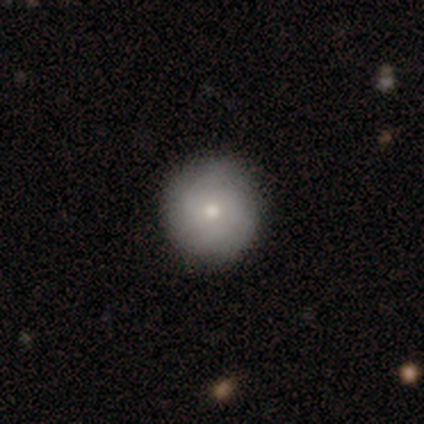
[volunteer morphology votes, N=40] type=smooth (62%); roundness=round (96%); merging=none (89%).